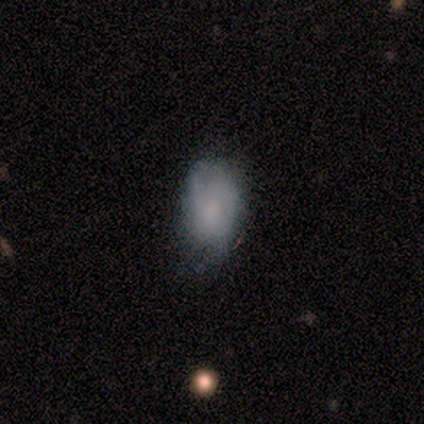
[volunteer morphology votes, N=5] Smooth or featured?
  - smooth: 60% *
  - featured or disk: 40%
  - star or artifact: 0%
How rounded?
  - in between: 100% *
  - round: 0%
  - cigar-shaped: 0%
Merging?
  - none: 60% *
  - minor disturbance: 40%
  - major disturbance: 0%
  - merger: 0%